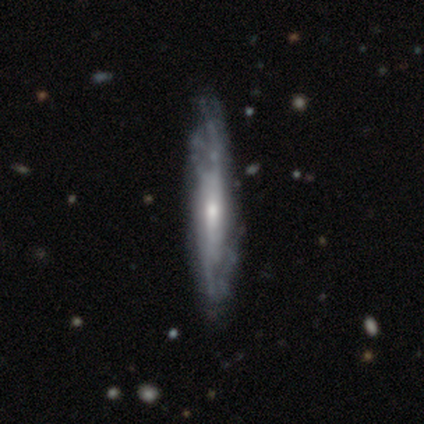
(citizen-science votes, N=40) smooth_or_featured: featured or disk (p=0.72) [alt: smooth p=0.25]
disk_edge_on: no (p=0.59) [alt: yes p=0.41]
bar: no (p=0.59) [alt: weak p=0.29]
has_spiral_arms: yes (p=0.76) [alt: no p=0.24]
spiral_winding: medium (p=0.46) [alt: loose p=0.31]
spiral_arm_count: can't tell (p=0.77) [alt: 2 p=0.15]
bulge_size: small (p=0.59) [alt: moderate p=0.35]
merging: none (p=0.46) [alt: minor disturbance p=0.13]